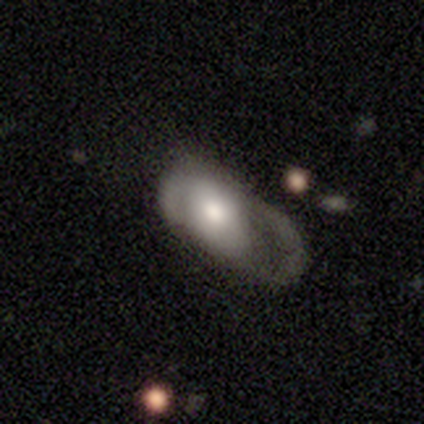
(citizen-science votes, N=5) Q: Smooth or featured?
A: smooth (60%); runner-up: featured or disk (40%)
Q: How rounded?
A: in between (100%)
Q: Merging?
A: major disturbance (80%); runner-up: minor disturbance (20%)